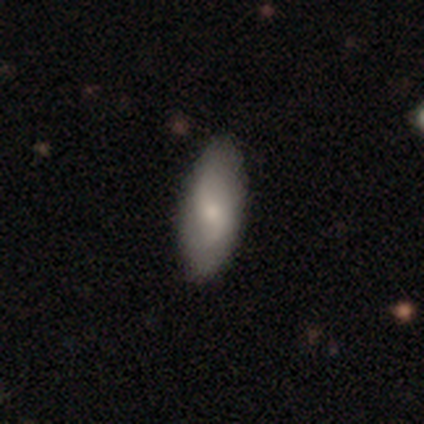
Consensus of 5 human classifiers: This is clearly a featured or disk galaxy (80%). It is clearly not viewed edge-on (100%). Bar: possibly weak (50%, tied with no). Spiral arm pattern: likely yes (75%). Spiral arm count: clearly 2 (100%). Spiral winding: marginally tight (33%, tied with medium and loose). Central bulge: likely small (75%). Merging: clearly none (100%).